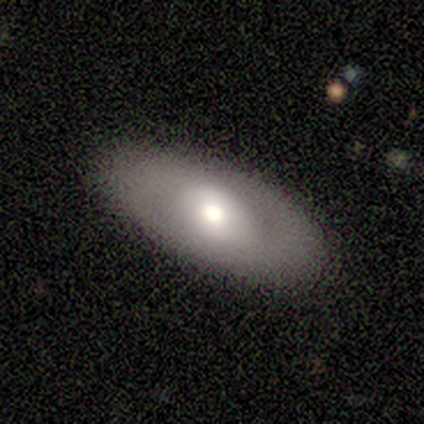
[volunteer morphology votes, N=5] Overall: smooth (80%). How rounded: in between (100%). Merging: none (80%).